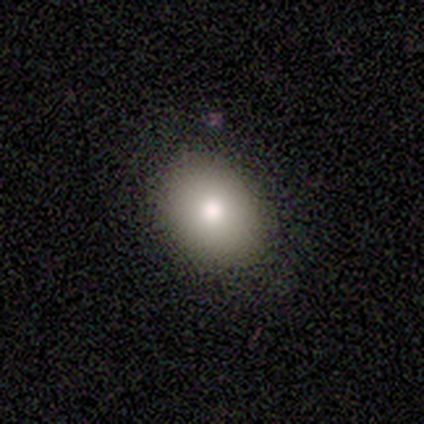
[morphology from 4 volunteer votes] Smooth or featured? smooth (100%)
How rounded? in between (75%)
Merging? none (100%)